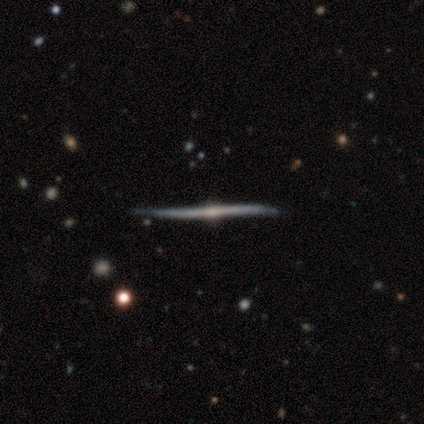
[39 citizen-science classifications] Volunteers were most divided on "merging": none: 58%, minor disturbance: 13%, merger: 8%, major disturbance: 0%. More confident: edge-on disk — yes (100%); edge-on bulge — rounded (97%); smooth or featured — featured or disk (95%).